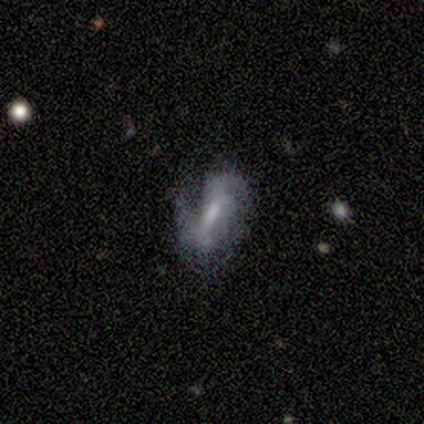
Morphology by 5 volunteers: Overall: featured or disk (100%). Edge-on disk: no (100%). Bar: weak (40%, tied with no). Spiral arms: yes (80%). Spiral arm count: 1 (50%, tied with 2). Spiral winding: medium (75%). Bulge size: moderate (40%, tied with small). Merging: none (80%).